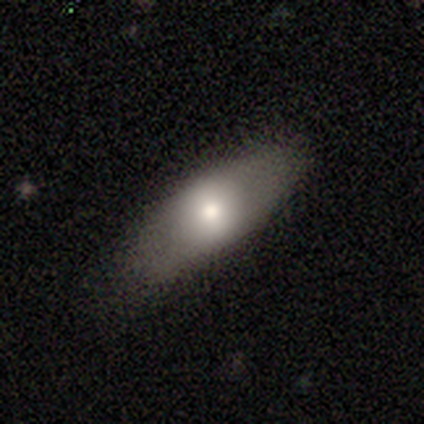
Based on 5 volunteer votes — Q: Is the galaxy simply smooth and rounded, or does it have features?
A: smooth — 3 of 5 (60%).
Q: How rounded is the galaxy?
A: in between — 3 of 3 (100%).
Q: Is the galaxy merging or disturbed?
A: none — 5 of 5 (100%).